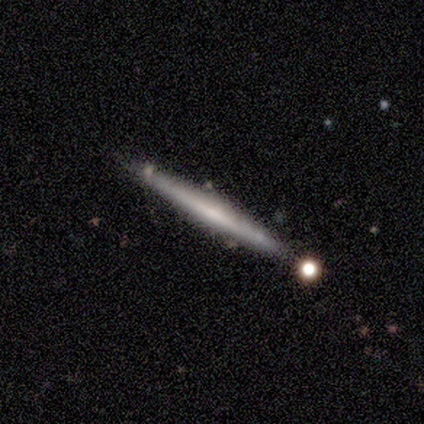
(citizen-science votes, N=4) Smooth or featured: smooth — 75% (featured or disk — 25%)
How rounded: cigar-shaped — 100%
Merging: none — 100%